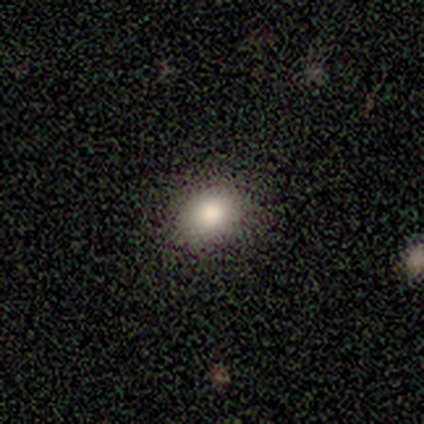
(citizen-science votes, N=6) This appears to be a smooth galaxy with no disk features (83%) that is round (60%). Merging: none (100%).